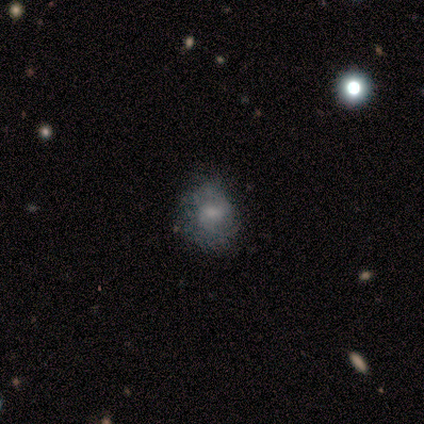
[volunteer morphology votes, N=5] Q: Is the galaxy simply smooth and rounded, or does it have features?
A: smooth — 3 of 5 (60%).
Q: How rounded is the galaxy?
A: round — 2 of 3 (67%).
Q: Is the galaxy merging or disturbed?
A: none — 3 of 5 (60%).